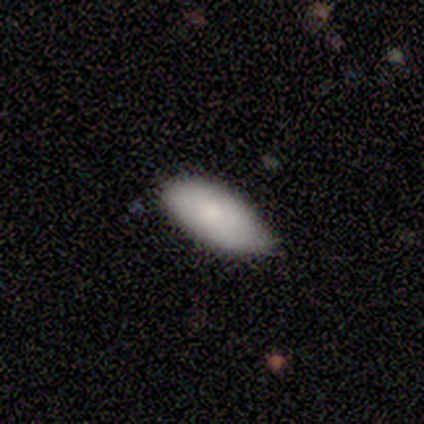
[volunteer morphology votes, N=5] This appears to be a smooth galaxy with no disk features (80%) that is in between round and cigar-shaped (100%). Merging: minor disturbance (60%).